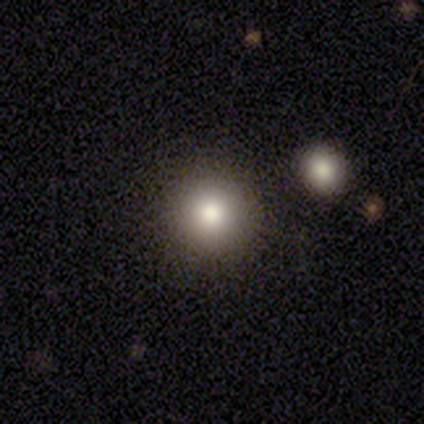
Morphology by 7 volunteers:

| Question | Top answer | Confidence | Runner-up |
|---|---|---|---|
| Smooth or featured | smooth | 86% | star or artifact (14%) |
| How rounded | round | 100% | — |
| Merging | none | 100% | — |